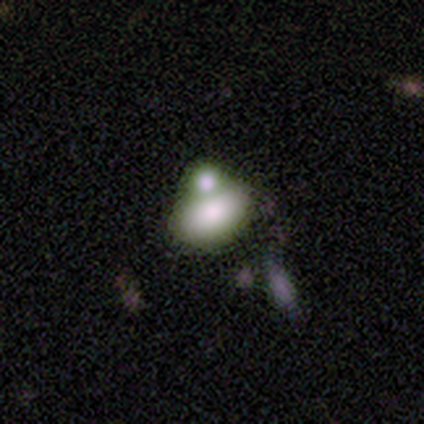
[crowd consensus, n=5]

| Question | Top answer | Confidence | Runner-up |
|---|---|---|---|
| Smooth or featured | smooth | 60% | featured or disk (40%) |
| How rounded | in between | 67% | round (33%) |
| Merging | merger | 60% | none (20%) |